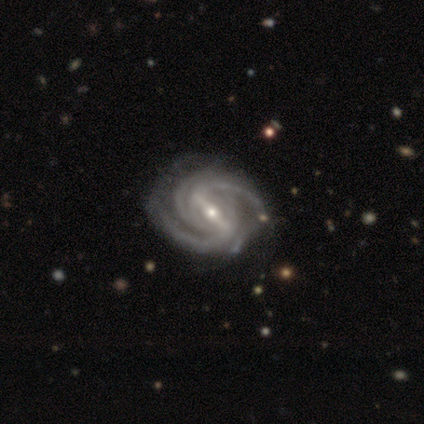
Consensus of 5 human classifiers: Morphology: type=featured or disk (100%); edge-on=no (100%); bar=strong (100%); spiral arms=yes (100%); winding=tight (60%); arm count=2 (40%, tied with 3); bulge=small (80%); merging=none (80%).